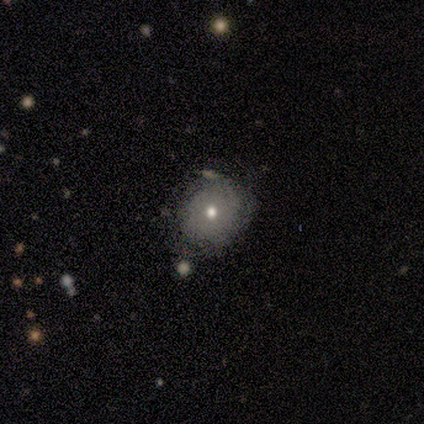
A smooth galaxy with no disk features (71%) that is round (80%). Merging: none (86%).